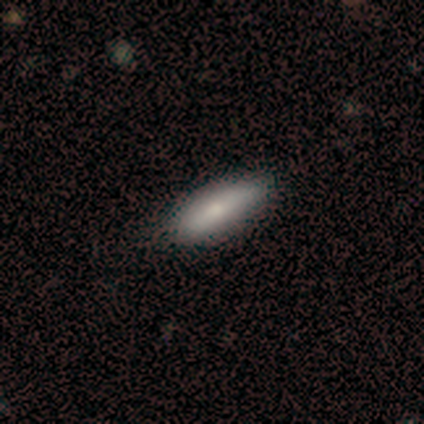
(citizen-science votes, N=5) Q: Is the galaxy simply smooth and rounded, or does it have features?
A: smooth — 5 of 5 (100%).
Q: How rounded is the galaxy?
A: in between — 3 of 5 (60%).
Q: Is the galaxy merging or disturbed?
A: none — 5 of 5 (100%).